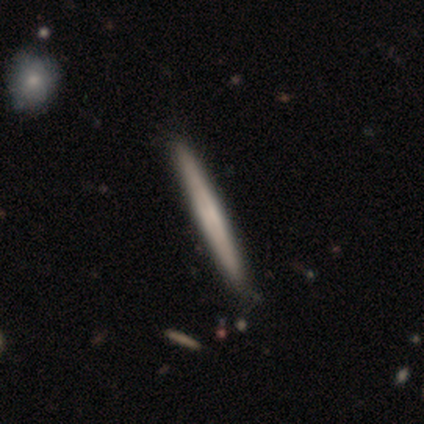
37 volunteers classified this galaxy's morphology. smooth-or-featured: featured or disk: 59% | smooth: 41% | star or artifact: 0%
  disk-edge-on: yes: 95% | no: 5%
    edge-on-bulge: none: 81% | boxy: 19% | rounded: 0%
  merging: none: 65% | minor disturbance: 5% | merger: 5% | major disturbance: 0%